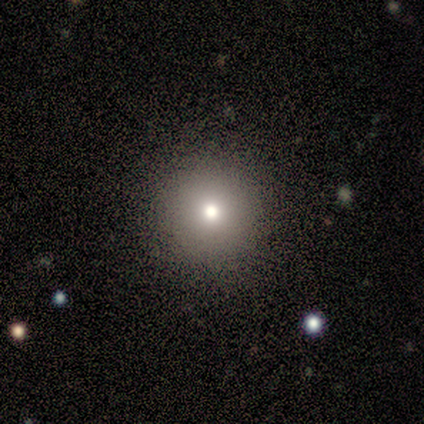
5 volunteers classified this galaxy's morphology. Smooth or featured? smooth (80%)
How rounded? round (100%)
Merging? none (100%)